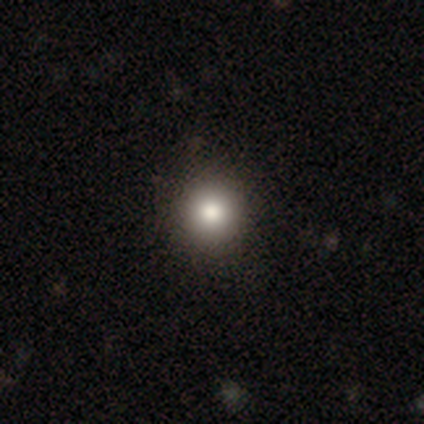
Smooth or featured?
  - smooth: 88% *
  - featured or disk: 10%
  - star or artifact: 2%
How rounded?
  - round: 94% *
  - in between: 6%
  - cigar-shaped: 0%
Merging?
  - none: 72% *
  - merger: 5%
  - minor disturbance: 3%
  - major disturbance: 0%